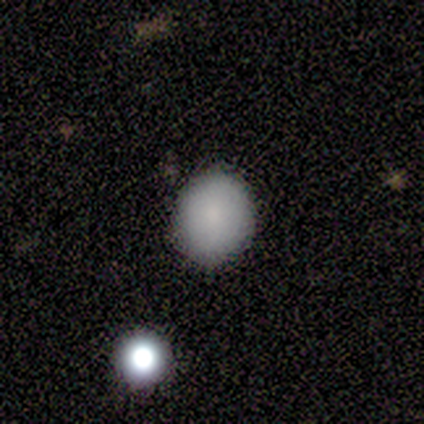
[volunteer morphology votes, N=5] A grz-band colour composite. It shows a smooth galaxy with no disk features (60%) that is in between round and cigar-shaped (67%). Merging: none (100%).